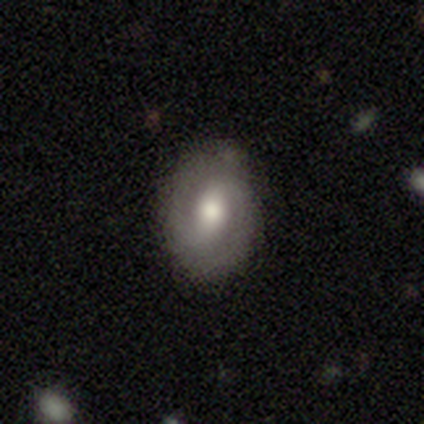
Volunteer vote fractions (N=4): This is likely a featured or disk galaxy (75%). It is clearly not viewed edge-on (100%). Bar: likely weak (67%). Spiral arm pattern: clearly yes (100%). Spiral arm count: clearly 2 (100%). Spiral winding: marginally tight (33%, tied with medium and loose). Central bulge: clearly moderate (100%). Merging: clearly none (100%).